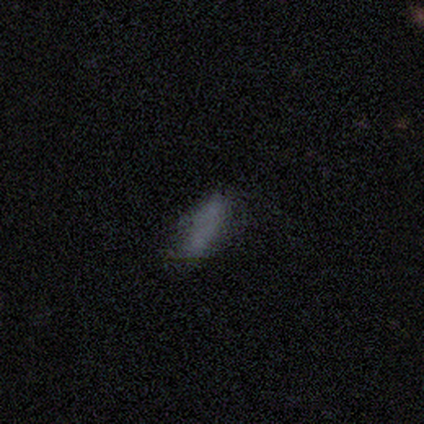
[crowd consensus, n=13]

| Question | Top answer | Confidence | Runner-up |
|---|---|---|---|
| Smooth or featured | smooth | 92% | featured or disk (8%) |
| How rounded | in between | 75% | cigar-shaped (17%) |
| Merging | none | 77% | minor disturbance (23%) |